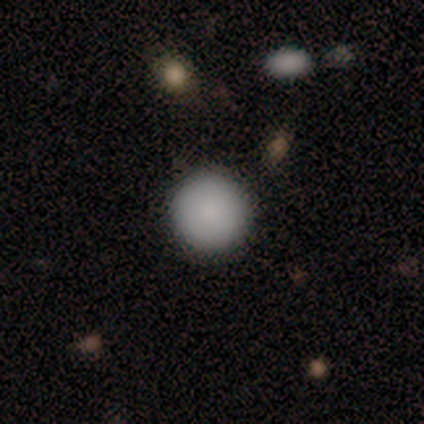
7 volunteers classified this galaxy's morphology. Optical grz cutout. It shows a smooth galaxy with no disk features (86%) that is round (100%). Merging: none (100%).